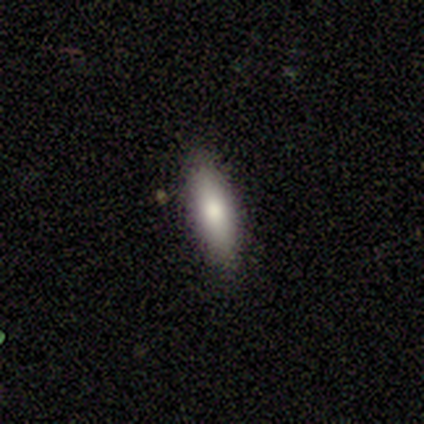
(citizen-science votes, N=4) Smooth or featured: smooth — 75% (featured or disk — 25%)
How rounded: cigar-shaped — 67% (in between — 33%)
Merging: none — 100%